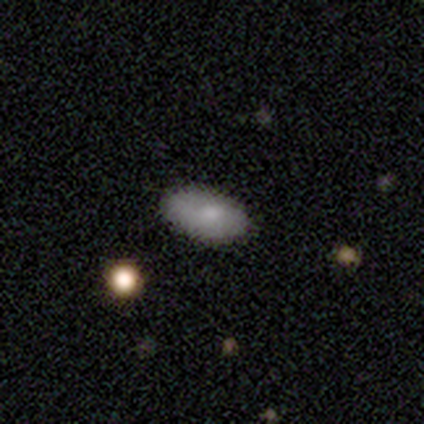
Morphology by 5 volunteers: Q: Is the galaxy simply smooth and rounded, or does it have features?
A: smooth — 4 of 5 (80%).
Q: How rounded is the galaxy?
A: in between — 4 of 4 (100%).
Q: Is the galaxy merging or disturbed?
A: none — 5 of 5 (100%).